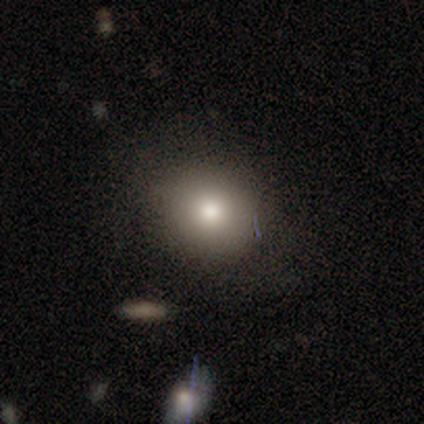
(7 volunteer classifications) Smooth or featured?
  - smooth: 86% *
  - featured or disk: 14%
  - star or artifact: 0%
How rounded?
  - round: 67% *
  - in between: 33%
  - cigar-shaped: 0%
Merging?
  - none: 86% *
  - minor disturbance: 14%
  - major disturbance: 0%
  - merger: 0%